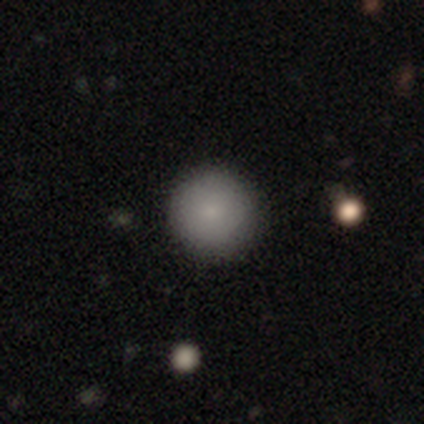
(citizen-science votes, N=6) Overall: smooth (100%). How rounded: round (100%). Merging: none (83%).